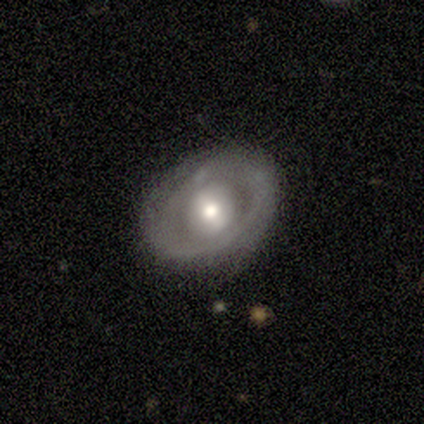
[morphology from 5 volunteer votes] This appears to be a featured or disk galaxy (60%) with a weak bar (67%), no spiral arms (67%) and a moderate central bulge (67%). Merging: none (100%).